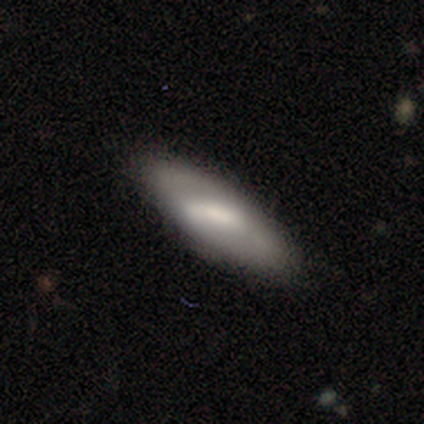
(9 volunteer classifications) A featured or disk galaxy (56%) with a strong bar (100%), 2 (100%) tight (67%) spiral arms (100%) and a small central bulge (67%). Merging: none (89%).